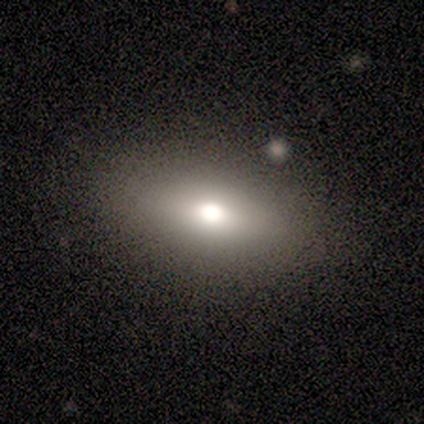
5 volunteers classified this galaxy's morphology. A smooth galaxy with no disk features (80%) that is in between round and cigar-shaped (75%).

Vote fractions:
- Smooth or featured? smooth: 80% / featured or disk: 20% / star or artifact: 0%
- How rounded? in between: 75% / cigar-shaped: 25% / round: 0%
- Merging? none: 60% / minor disturbance: 20% / merger: 20% / major disturbance: 0%